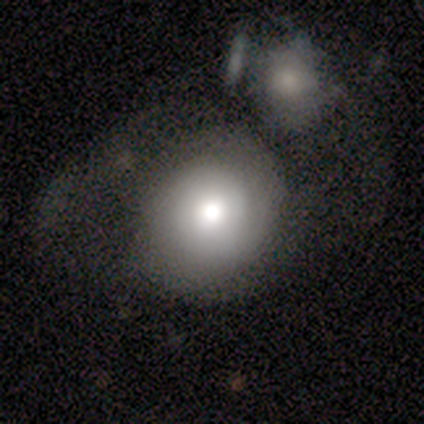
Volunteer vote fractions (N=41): smooth-or-featured: smooth: 61% | featured or disk: 32% | star or artifact: 7%
  how-rounded: round: 80% | in between: 20% | cigar-shaped: 0%
  merging: merger: 37% | none: 34% | major disturbance: 18% | minor disturbance: 11%